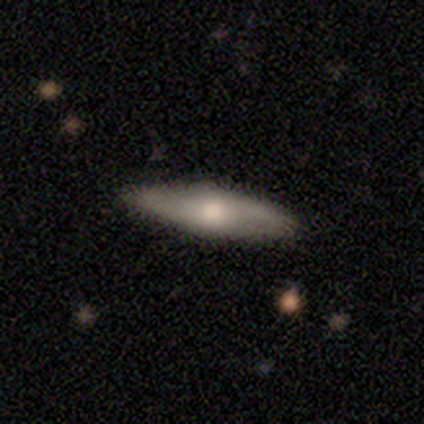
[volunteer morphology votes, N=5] Q: Smooth or featured?
A: smooth (40%); tied with: featured or disk (40%)
Q: How rounded?
A: in between (50%); tied with: cigar-shaped (50%)
Q: Merging?
A: none (100%)